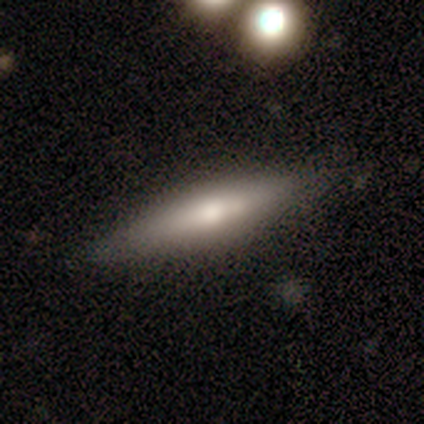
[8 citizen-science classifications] This is possibly a smooth galaxy (50%, tied with featured or disk). How rounded: clearly cigar-shaped (100%). Merging: clearly none (88%).